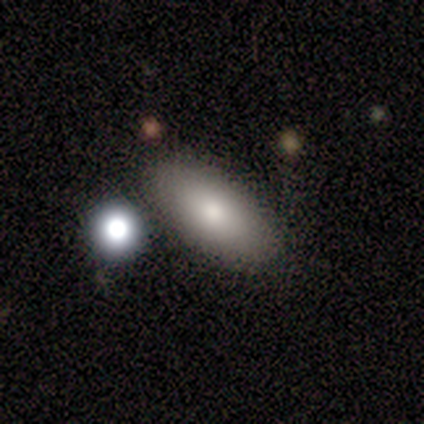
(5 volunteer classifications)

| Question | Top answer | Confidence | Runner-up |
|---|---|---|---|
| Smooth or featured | smooth | 100% | — |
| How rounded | in between | 100% | — |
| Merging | none | 40% | tied: merger (40%) |